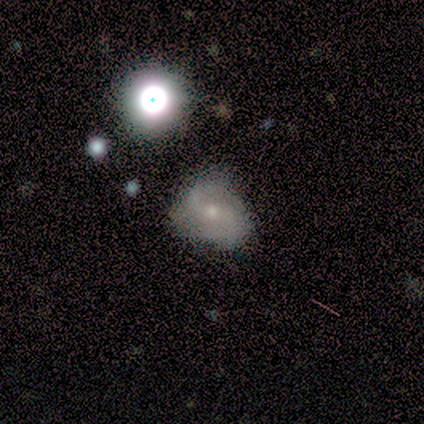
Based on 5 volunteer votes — This is likely a featured or disk galaxy (60%). It is clearly not viewed edge-on (100%). Bar: likely no (67%). Spiral arm pattern: clearly yes (100%). Spiral arm count: clearly 2 (100%). Spiral winding: likely loose (67%). Central bulge: likely small (67%). Merging: likely none (60%).